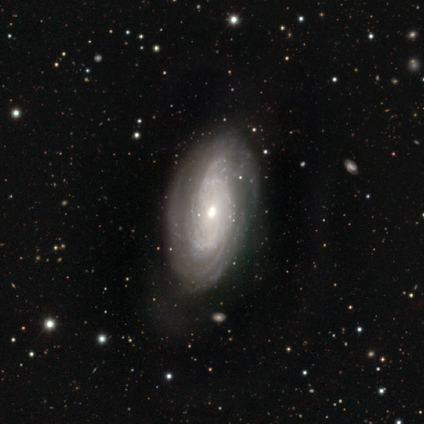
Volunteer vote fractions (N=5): Volunteers were most divided on "bulge size" (2-way tie): moderate: 50%, small: 50%, dominant: 0%, large: 0%, none: 0%; "merging" (2-way tie): none: 40%, minor disturbance: 40%, major disturbance: 20%, merger: 0%. More confident: edge-on disk — no (100%); spiral arms — yes (100%); smooth or featured — featured or disk (80%); spiral winding — tight (75%); spiral arm count — can't tell (75%); bar — no (50%).